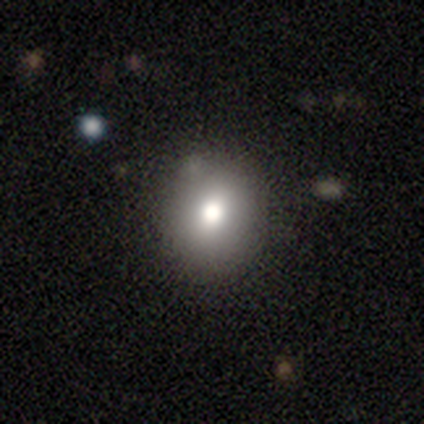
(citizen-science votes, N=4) A smooth galaxy with no disk features (75%) that is in between round and cigar-shaped (67%). Merging: none (67%).